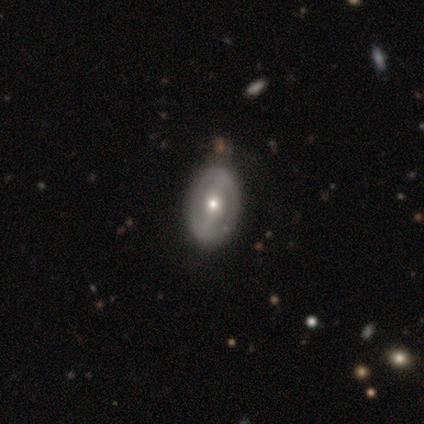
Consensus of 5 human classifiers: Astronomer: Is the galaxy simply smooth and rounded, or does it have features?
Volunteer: featured or disk — 100%.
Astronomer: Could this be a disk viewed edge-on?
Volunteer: no — 100%.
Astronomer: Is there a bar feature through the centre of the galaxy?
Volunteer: strong — 60%.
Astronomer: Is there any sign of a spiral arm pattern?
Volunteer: no — 60% (runner-up: yes, 40%).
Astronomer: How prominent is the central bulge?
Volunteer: moderate — 60% (runner-up: small, 40%).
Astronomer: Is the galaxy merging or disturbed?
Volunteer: none — 80%.